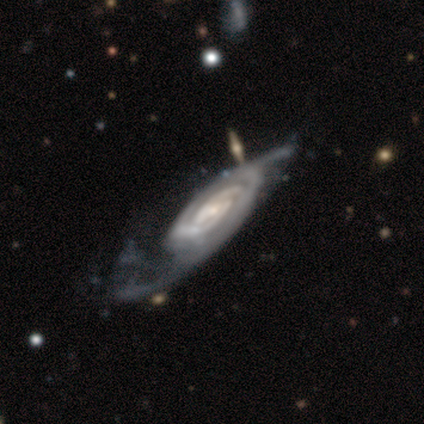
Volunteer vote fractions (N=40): featured or disk 90%, smooth 8%, star or artifact 2%. Down the decision tree: edge-on disk — no (97%); bar — weak (46%); spiral arms — yes (100%); spiral arm count — 2 (71%); spiral winding — tight (51%); bulge size — small (57%); merging — major disturbance (26%).